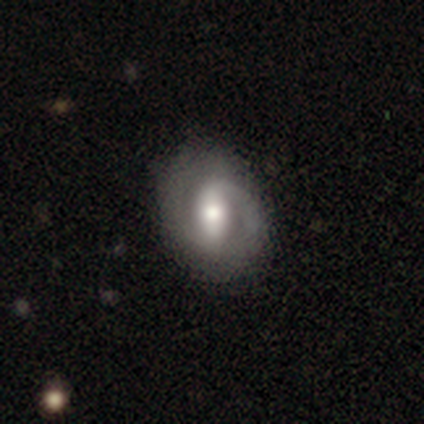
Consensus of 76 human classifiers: Smooth or featured? 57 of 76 (75%) said featured or disk. Edge-on disk? 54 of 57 (95%) said no. Bar? 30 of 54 (56%) said strong. Spiral arms? 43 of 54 (80%) said yes. Spiral winding? 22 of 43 (51%) said tight. Spiral arm count? 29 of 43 (67%) said 2. Bulge size? 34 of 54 (63%) said moderate. Merging? 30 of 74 (41%) said none.